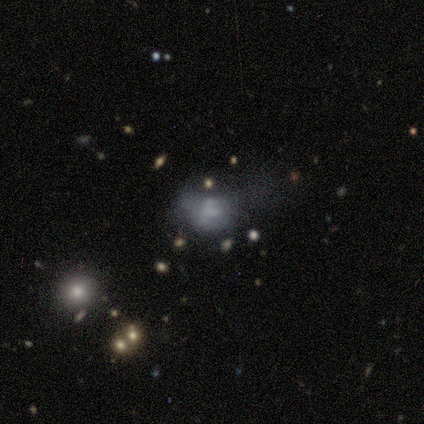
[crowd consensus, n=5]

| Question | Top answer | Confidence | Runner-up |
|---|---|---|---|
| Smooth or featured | smooth | 80% | featured or disk (20%) |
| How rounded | round | 50% | tied: in between (50%) |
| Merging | minor disturbance | 60% | major disturbance (40%) |